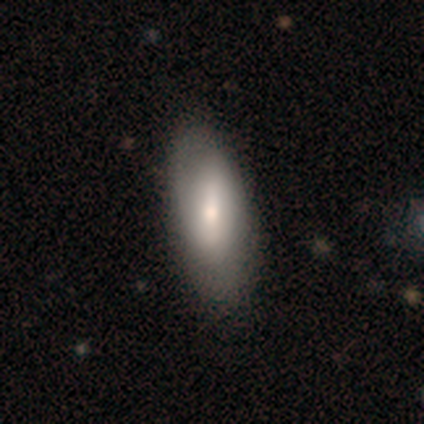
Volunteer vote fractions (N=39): A smooth galaxy with no disk features (59%) that is in between round and cigar-shaped (83%).

Vote fractions:
- Smooth or featured? smooth: 59% / featured or disk: 41% / star or artifact: 0%
- How rounded? in between: 83% / cigar-shaped: 13% / round: 4%
- Merging? none: 62% / minor disturbance: 10% / major disturbance: 3% / merger: 3%